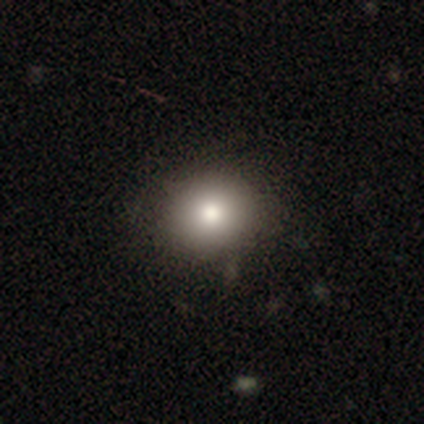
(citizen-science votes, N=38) Smooth or featured: smooth — 82% (featured or disk — 11%)
How rounded: round — 77% (in between — 23%)
Merging: none — 89% (minor disturbance — 9%)